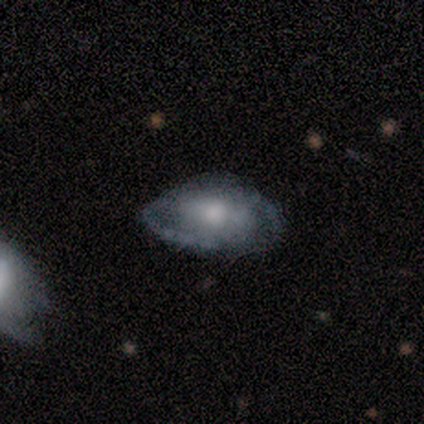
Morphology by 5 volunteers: type=smooth (60%); roundness=in between (100%); merging=none (60%).